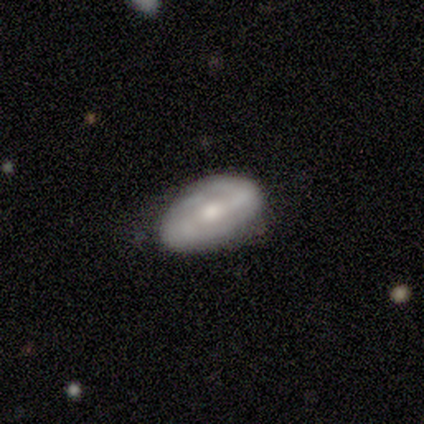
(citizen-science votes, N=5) A smooth galaxy with no disk features (60%) that is in between round and cigar-shaped (100%). Merging: none (60%).